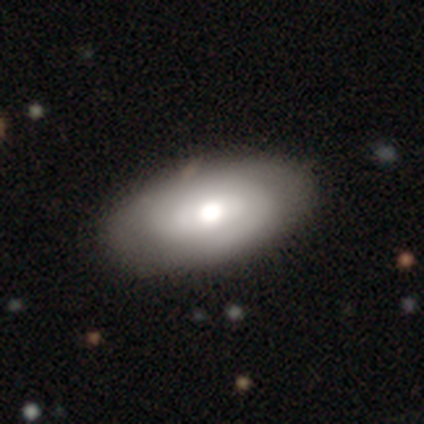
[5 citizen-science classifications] Smooth or featured: featured or disk — 100%
Edge-on disk: no — 100%
Bar: no — 60% (weak — 40%)
Spiral arms: yes — 60% (no — 40%)
Spiral winding: tight — 67% (medium — 33%)
Spiral arm count: 1 — 33% (tied with 2 — 33%; can't tell — 33%)
Bulge size: moderate — 100%
Merging: none — 100%